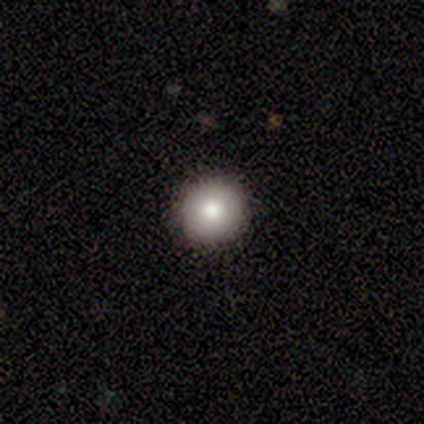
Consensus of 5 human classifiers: Overall: smooth (100%). How rounded: round (100%). Merging: none (100%).